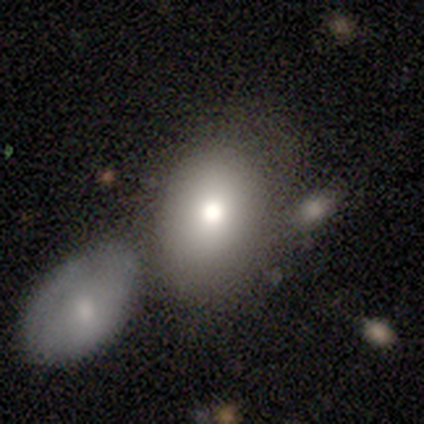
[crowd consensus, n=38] smooth_or_featured: smooth (p=0.74) [alt: featured or disk p=0.26]
how_rounded: in between (p=0.79) [alt: round p=0.21]
merging: none (p=0.55) [alt: merger p=0.24]